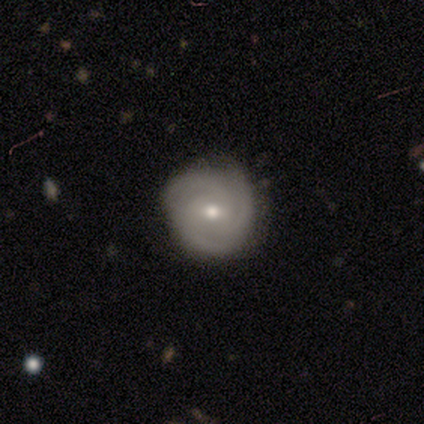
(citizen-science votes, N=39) A featured or disk galaxy (64%) with no bar (56%), 3 (75%) tight (75%) spiral arms (96%) and a small central bulge (52%).

Vote fractions:
- Smooth or featured? featured or disk: 64% / smooth: 31% / star or artifact: 5%
- Edge-on disk? no: 100% / yes: 0%
- Bar? no: 56% / weak: 36% / strong: 8%
- Spiral arms? yes: 96% / no: 4%
- Spiral winding? tight: 75% / medium: 25% / loose: 0%
- Spiral arm count? 3: 75% / can't tell: 12% / 2: 8% / 4: 4% / 1: 0% / more than 4: 0%
- Bulge size? small: 52% / moderate: 40% / none: 8% / dominant: 0% / large: 0%
- Merging? none: 86% / minor disturbance: 11% / major disturbance: 3% / merger: 0%